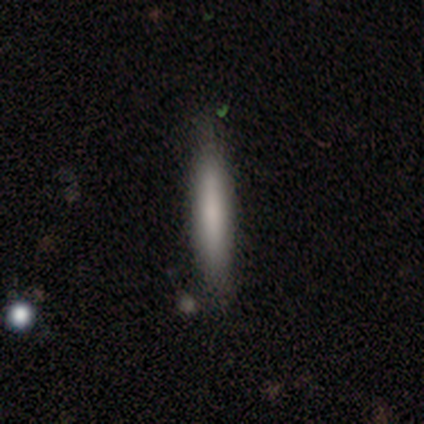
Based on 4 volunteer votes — Smooth or featured? smooth (50%)
How rounded? cigar-shaped (100%)
Merging? none (100%)